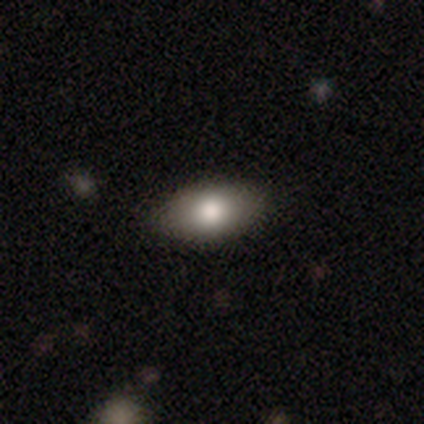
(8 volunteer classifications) Volunteers were most divided on "smooth or featured": smooth: 75%, featured or disk: 12%, star or artifact: 12%. More confident: how rounded — in between (100%); merging — none (100%).